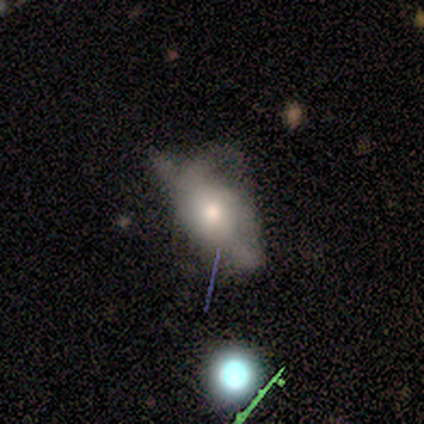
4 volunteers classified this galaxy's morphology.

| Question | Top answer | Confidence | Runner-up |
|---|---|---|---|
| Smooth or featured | featured or disk | 50% | smooth (25%) |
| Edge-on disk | yes | 50% | tied: no (50%) |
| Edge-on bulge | boxy | 100% | — |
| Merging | minor disturbance | 67% | major disturbance (33%) |